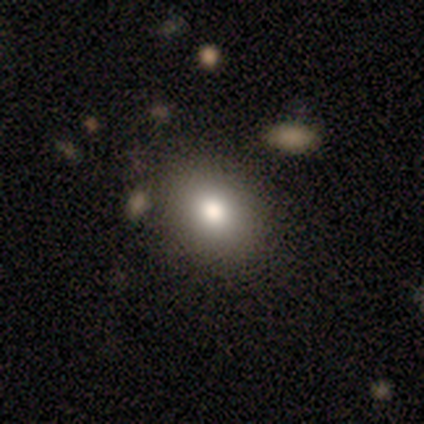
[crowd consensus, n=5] This is clearly a smooth galaxy (80%). How rounded: possibly round (50%, tied with in between). Merging: likely none (75%).